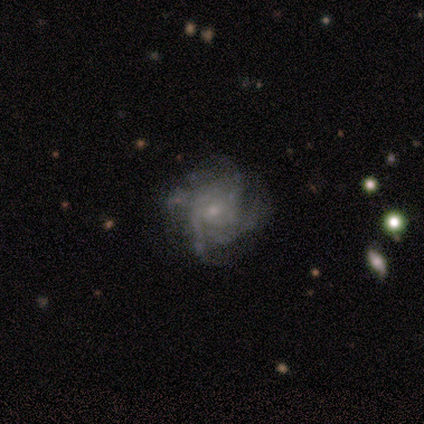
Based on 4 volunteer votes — Smooth or featured?
  - featured or disk: 75% *
  - star or artifact: 25%
  - smooth: 0%
Edge-on disk?
  - no: 100% *
  - yes: 0%
Bar?
  - no: 100% *
  - strong: 0%
  - weak: 0%
Spiral arms?
  - yes: 100% *
  - no: 0%
Spiral winding?
  - medium: 100% *
  - tight: 0%
  - loose: 0%
Spiral arm count?
  - can't tell: 67% *
  - 4: 33%
  - 1: 0%
  - 2: 0%
  - 3: 0%
  - more than 4: 0%
Bulge size?
  - moderate: 67% *
  - small: 33%
  - dominant: 0%
  - large: 0%
  - none: 0%
Merging?
  - none: 67% *
  - major disturbance: 33%
  - minor disturbance: 0%
  - merger: 0%